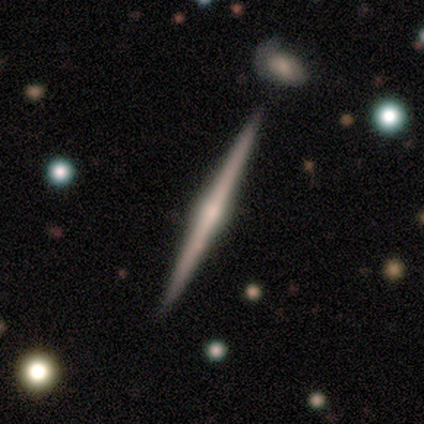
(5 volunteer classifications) Smooth or featured? featured or disk (100%)
Edge-on disk? yes (80%)
Edge-on bulge? rounded (75%)
Merging? none (80%)